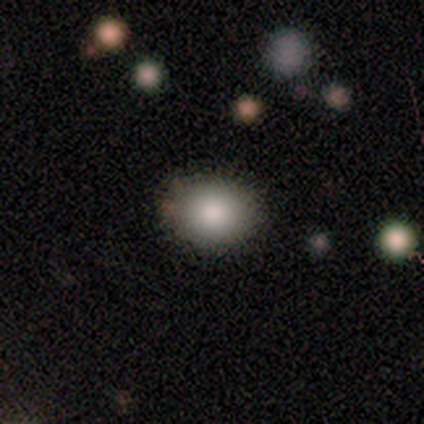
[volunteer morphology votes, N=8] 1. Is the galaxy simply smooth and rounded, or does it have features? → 100% smooth, 0% featured or disk, 0% star or artifact.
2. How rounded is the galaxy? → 62% in between, 38% round, 0% cigar-shaped.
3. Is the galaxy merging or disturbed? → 88% none, 12% minor disturbance, 0% major disturbance, 0% merger.